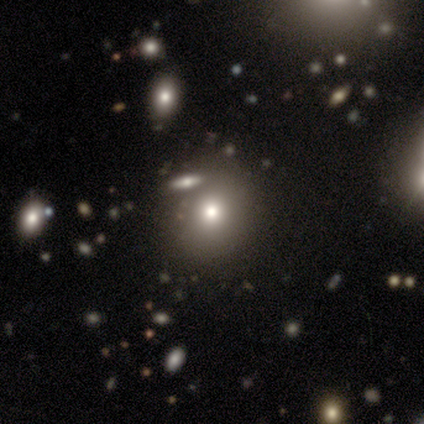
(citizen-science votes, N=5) Morphology: type=smooth (100%); roundness=round (80%); merging=none (100%).